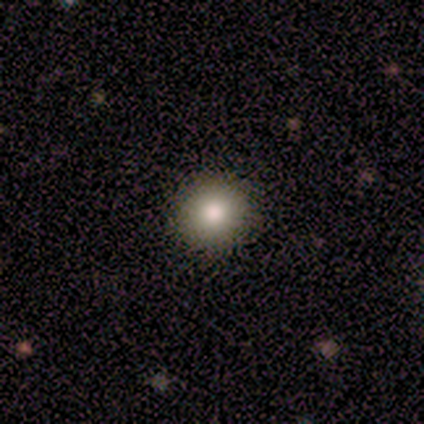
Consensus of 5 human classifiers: Consensus on every question: smooth or featured — smooth (100%); how rounded — round (100%); merging — none (100%).